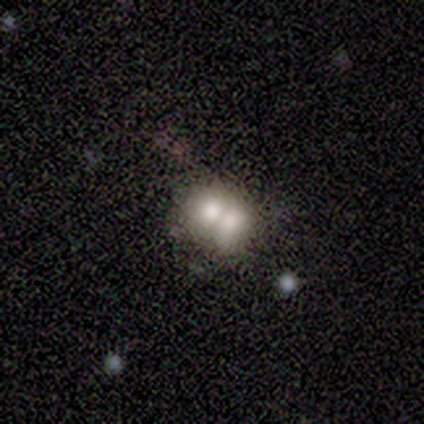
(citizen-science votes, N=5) Smooth or featured: smooth — 80% (featured or disk — 20%)
How rounded: round — 75% (in between — 25%)
Merging: merger — 100%